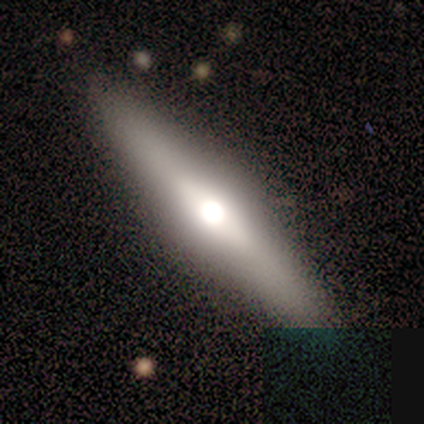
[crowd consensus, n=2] A featured or disk galaxy (100%) viewed edge-on (100%) with a rounded central bulge (100%).

Vote fractions:
- Smooth or featured? featured or disk: 100% / smooth: 0% / star or artifact: 0%
- Edge-on disk? yes: 100% / no: 0%
- Edge-on bulge? rounded: 100% / boxy: 0% / none: 0%
- Merging? none: 100% / minor disturbance: 0% / major disturbance: 0% / merger: 0%